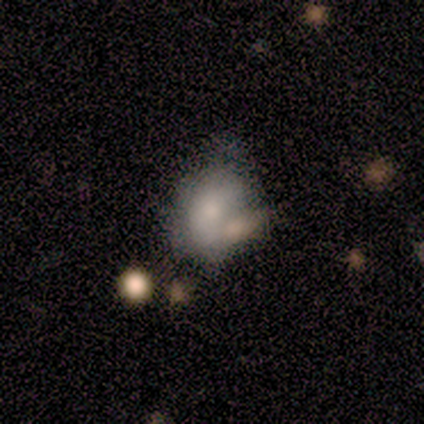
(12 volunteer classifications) Smooth or featured?
  - smooth: 58% *
  - featured or disk: 42%
  - star or artifact: 0%
How rounded?
  - in between: 71% *
  - round: 29%
  - cigar-shaped: 0%
Merging?
  - merger: 42% *
  - minor disturbance: 33%
  - major disturbance: 17%
  - none: 8%